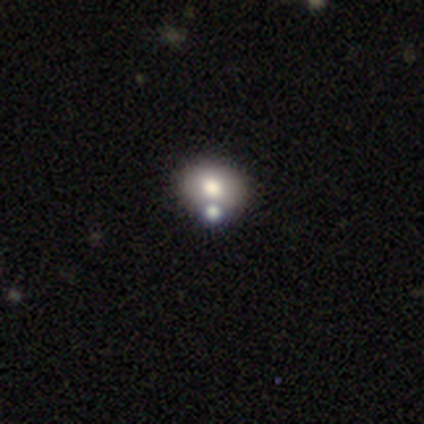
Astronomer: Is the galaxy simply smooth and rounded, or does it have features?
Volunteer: smooth — 100%.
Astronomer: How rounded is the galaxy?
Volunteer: round — 60% (runner-up: in between, 40%).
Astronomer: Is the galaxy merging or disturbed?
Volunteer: none — 80%.